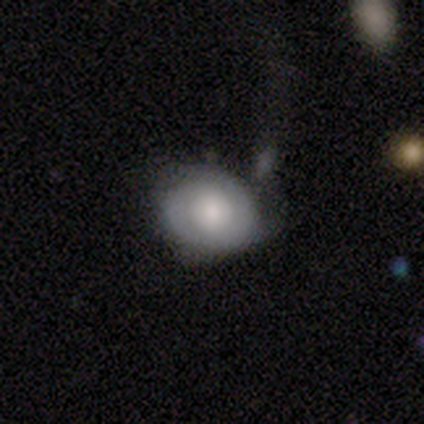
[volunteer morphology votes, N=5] smooth_or_featured: featured or disk (p=0.60) [alt: smooth p=0.40]
disk_edge_on: no (p=1.00)
bar: no (p=1.00)
has_spiral_arms: yes (p=0.67) [alt: no p=0.33]
spiral_winding: tight (p=0.50) [tied with: medium p=0.50]
spiral_arm_count: 2 (p=0.50) [tied with: can't tell p=0.50]
bulge_size: large (p=0.67) [alt: moderate p=0.33]
merging: none (p=0.80) [alt: minor disturbance p=0.20]